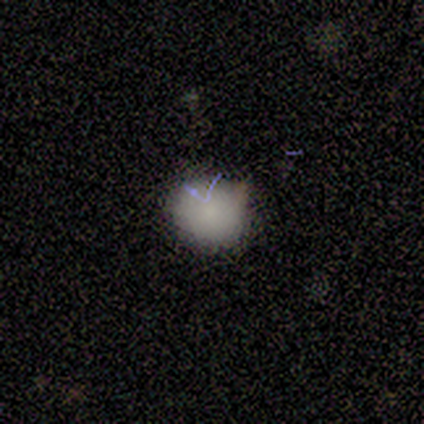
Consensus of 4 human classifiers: This is clearly a smooth galaxy (100%). How rounded: possibly round (50%, tied with in between). Merging: likely none (75%).